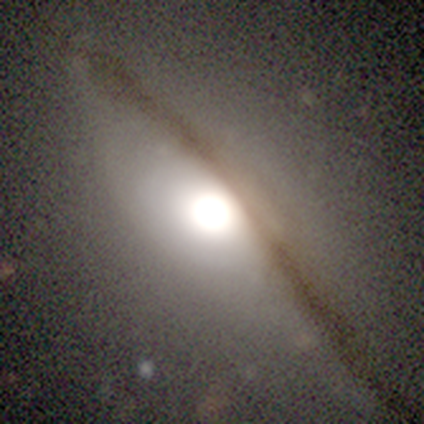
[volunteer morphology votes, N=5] Q: Smooth or featured?
A: featured or disk (60%); runner-up: smooth (40%)
Q: Edge-on disk?
A: no (67%); runner-up: yes (33%)
Q: Bar?
A: no (100%)
Q: Spiral arms?
A: no (100%)
Q: Bulge size?
A: large (50%); tied with: moderate (50%)
Q: Merging?
A: none (100%)